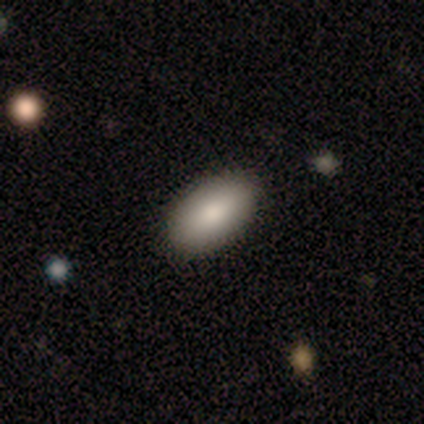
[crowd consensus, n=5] Smooth or featured: smooth — 100%
How rounded: in between — 100%
Merging: none — 80% (minor disturbance — 20%)